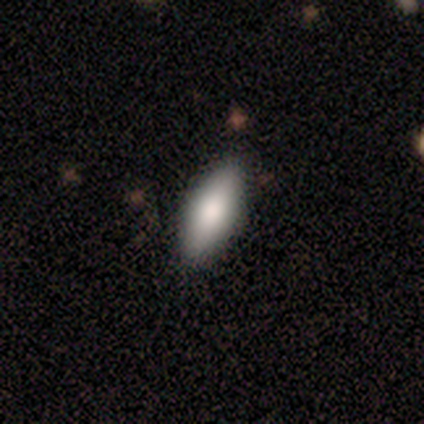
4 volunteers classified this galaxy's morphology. Smooth or featured? smooth (75%)
How rounded? in between (67%)
Merging? none (75%)